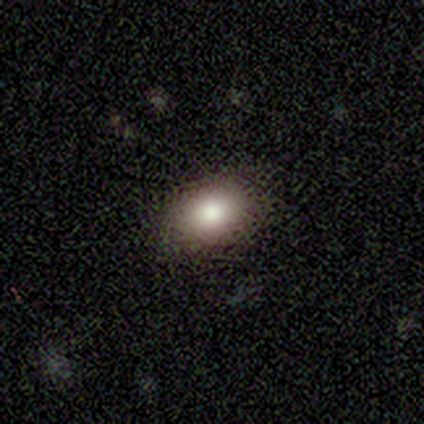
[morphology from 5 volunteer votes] Smooth or featured?
  - smooth: 100% *
  - featured or disk: 0%
  - star or artifact: 0%
How rounded?
  - in between: 60% *
  - round: 40%
  - cigar-shaped: 0%
Merging?
  - none: 100% *
  - minor disturbance: 0%
  - major disturbance: 0%
  - merger: 0%